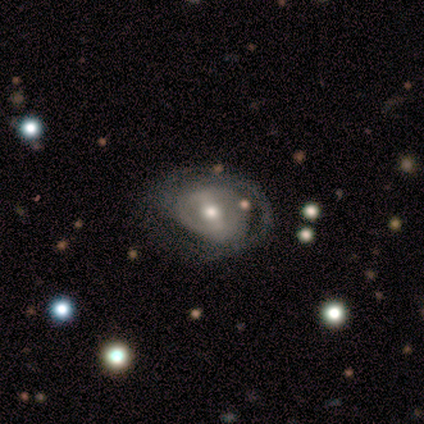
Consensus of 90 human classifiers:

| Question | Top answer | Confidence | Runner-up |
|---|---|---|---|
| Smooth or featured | featured or disk | 80% | smooth (13%) |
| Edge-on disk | no | 99% | yes (1%) |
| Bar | weak | 48% | strong (38%) |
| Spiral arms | yes | 61% | no (39%) |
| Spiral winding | tight | 56% | medium (30%) |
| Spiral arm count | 2 | 40% | can't tell (30%) |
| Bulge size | moderate | 79% | large (13%) |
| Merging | none | 42% | minor disturbance (36%) |